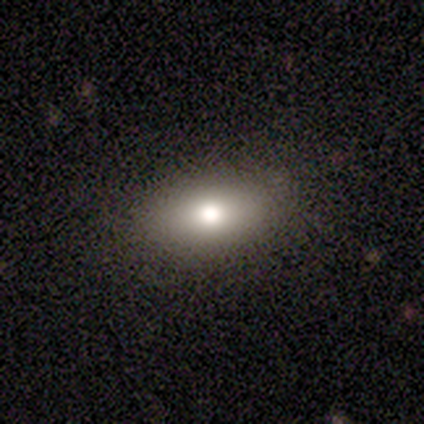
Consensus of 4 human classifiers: smooth-or-featured: smooth: 75% | star or artifact: 25% | featured or disk: 0%
  how-rounded: in between: 67% | round: 33% | cigar-shaped: 0%
  merging: none: 67% | major disturbance: 33% | minor disturbance: 0% | merger: 0%